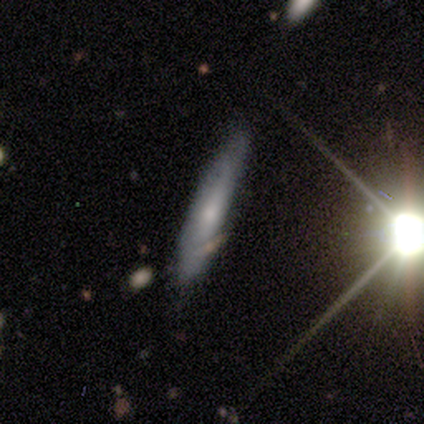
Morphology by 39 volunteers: Smooth or featured? smooth (49%)
How rounded? cigar-shaped (95%)
Merging? none (70%)